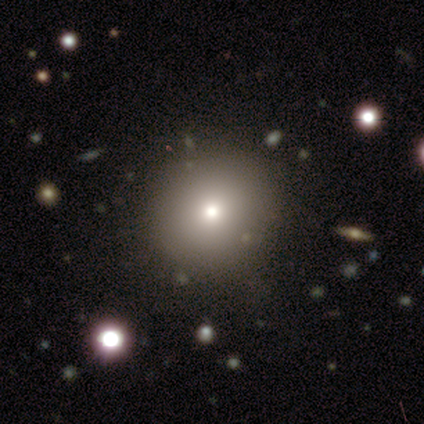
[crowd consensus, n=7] This appears to be a smooth galaxy with no disk features (100%) that is round (100%). Merging: none (71%).